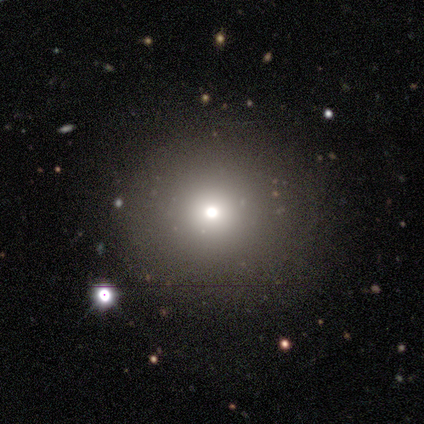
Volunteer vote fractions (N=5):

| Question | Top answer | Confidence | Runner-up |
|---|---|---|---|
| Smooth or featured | featured or disk | 40% | tied: star or artifact (40%) |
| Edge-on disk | no | 100% | — |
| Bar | no | 100% | — |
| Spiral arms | no | 100% | — |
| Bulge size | dominant | 50% | tied: small (50%) |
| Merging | none | 67% | minor disturbance (33%) |